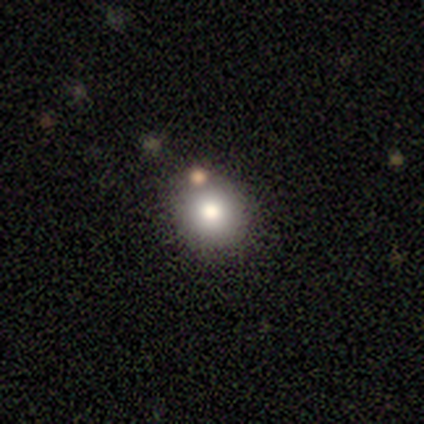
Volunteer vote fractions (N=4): A smooth galaxy with no disk features (75%) that is round (100%).

Vote fractions:
- Smooth or featured? smooth: 75% / star or artifact: 25% / featured or disk: 0%
- How rounded? round: 100% / in between: 0% / cigar-shaped: 0%
- Merging? none: 67% / merger: 33% / minor disturbance: 0% / major disturbance: 0%